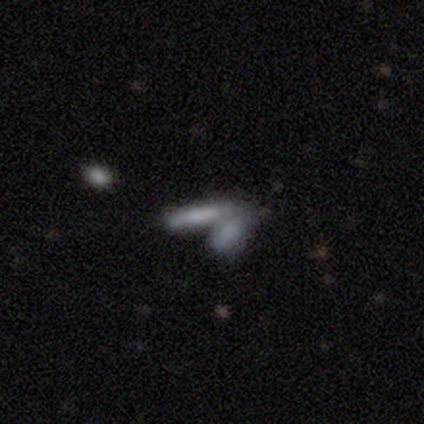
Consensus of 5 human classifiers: Q: Smooth or featured?
A: smooth (100%)
Q: How rounded?
A: cigar-shaped (80%); runner-up: in between (20%)
Q: Merging?
A: merger (80%); runner-up: none (20%)